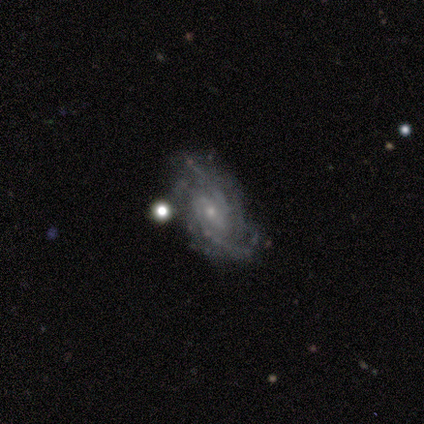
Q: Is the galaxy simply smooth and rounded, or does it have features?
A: featured or disk — 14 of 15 (93%).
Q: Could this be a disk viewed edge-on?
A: no — 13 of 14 (93%).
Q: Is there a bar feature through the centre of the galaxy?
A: no — 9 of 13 (69%).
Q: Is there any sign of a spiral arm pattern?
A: yes — 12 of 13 (92%).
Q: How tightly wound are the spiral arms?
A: tight — 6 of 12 (50%).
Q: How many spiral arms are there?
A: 2 — 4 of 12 (33%, tied with can't tell).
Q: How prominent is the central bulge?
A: small — 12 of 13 (92%).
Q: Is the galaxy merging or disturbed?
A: none — 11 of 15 (73%).